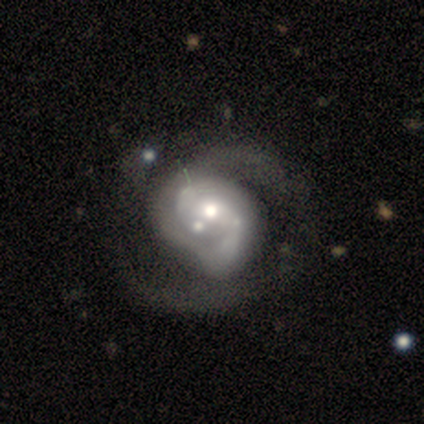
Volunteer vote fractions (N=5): smooth_or_featured: featured or disk (p=0.80) [alt: smooth p=0.20]
disk_edge_on: no (p=1.00)
bar: weak (p=0.75) [alt: no p=0.25]
has_spiral_arms: yes (p=1.00)
spiral_winding: tight (p=0.50) [tied with: medium p=0.50]
spiral_arm_count: 2 (p=0.50) [tied with: can't tell p=0.50]
bulge_size: moderate (p=0.50) [alt: dominant p=0.25]
merging: merger (p=0.80) [alt: major disturbance p=0.20]